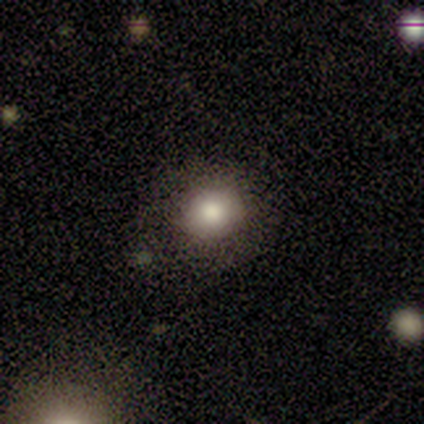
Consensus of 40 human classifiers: Smooth or featured?
  - smooth: 70% *
  - featured or disk: 15%
  - star or artifact: 15%
How rounded?
  - round: 86% *
  - in between: 14%
  - cigar-shaped: 0%
Merging?
  - none: 65% *
  - minor disturbance: 12%
  - major disturbance: 0%
  - merger: 0%